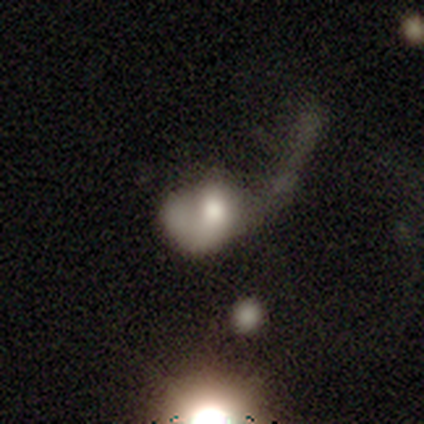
Smooth or featured? smooth (50%, tied with featured or disk)
How rounded? round (50%, tied with in between)
Merging? major disturbance (100%)